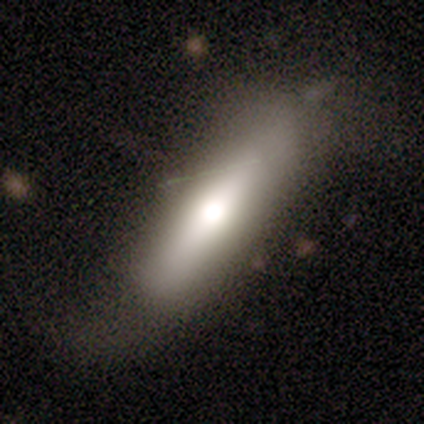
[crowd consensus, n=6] This appears to be a smooth galaxy with no disk features (50%, tied with featured or disk) that is cigar-shaped (67%). Merging: none (67%).